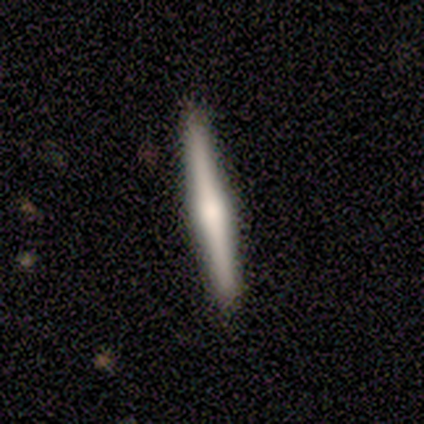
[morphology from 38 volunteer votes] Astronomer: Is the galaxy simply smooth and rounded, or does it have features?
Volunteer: featured or disk — 66%.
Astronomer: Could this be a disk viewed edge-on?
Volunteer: yes — 100%.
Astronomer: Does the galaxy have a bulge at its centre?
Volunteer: rounded — 76%.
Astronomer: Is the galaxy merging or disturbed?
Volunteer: none — 86%.